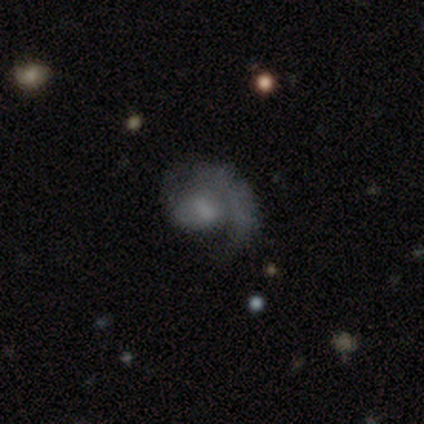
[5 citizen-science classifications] A featured or disk galaxy (100%) with no bar (75%), no spiral arms (75%) and a moderate central bulge (75%).

Vote fractions:
- Smooth or featured? featured or disk: 100% / smooth: 0% / star or artifact: 0%
- Edge-on disk? no: 80% / yes: 20%
- Bar? no: 75% / weak: 25% / strong: 0%
- Spiral arms? no: 75% / yes: 25%
- Bulge size? moderate: 75% / none: 25% / dominant: 0% / large: 0% / small: 0%
- Merging? major disturbance: 60% / none: 40% / minor disturbance: 0% / merger: 0%